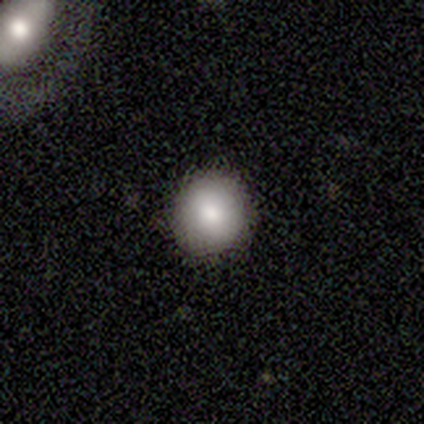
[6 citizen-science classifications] This appears to be a smooth galaxy with no disk features (83%) that is round (100%). Merging: none (83%).